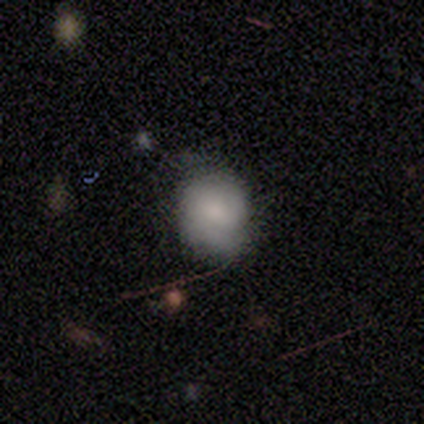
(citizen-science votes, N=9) A featured or disk galaxy (56%) with no bar (50%), 2 (75%) tight (75%) spiral arms (100%) and a small central bulge (75%). Merging: none (67%).